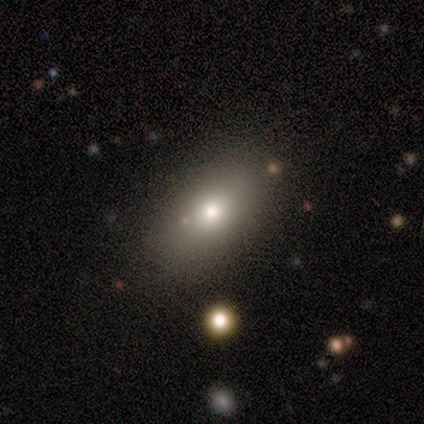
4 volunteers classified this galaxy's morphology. Volunteers were most divided on "merging" (2-way tie): none: 50%, minor disturbance: 50%, major disturbance: 0%, merger: 0%. More confident: smooth or featured — smooth (100%); how rounded — in between (100%).